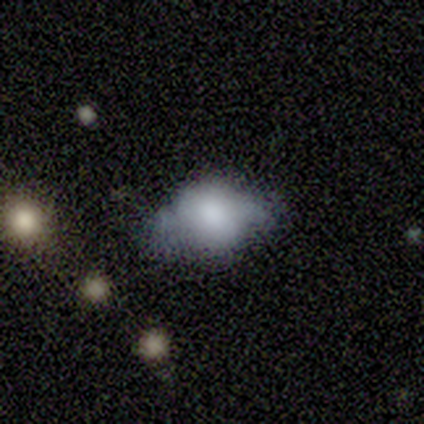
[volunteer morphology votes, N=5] Volunteers were most divided on "how rounded": in between: 75%, round: 25%, cigar-shaped: 0%. More confident: smooth or featured — smooth (80%); merging — none (75%).